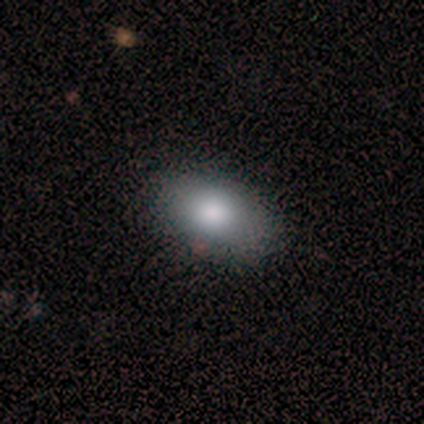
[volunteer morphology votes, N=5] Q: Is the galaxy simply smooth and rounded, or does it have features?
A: smooth — 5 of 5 (100%).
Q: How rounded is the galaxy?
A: in between — 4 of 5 (80%).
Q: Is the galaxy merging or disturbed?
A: minor disturbance — 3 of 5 (60%).